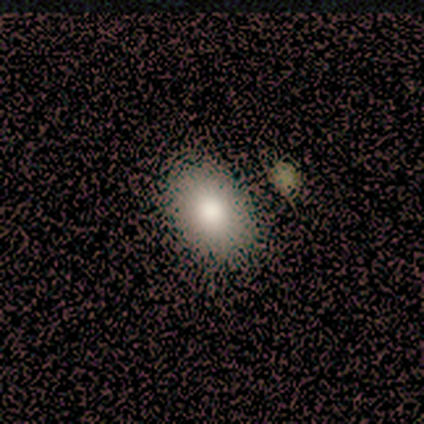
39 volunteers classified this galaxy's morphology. A smooth galaxy with no disk features (82%) that is in between round and cigar-shaped (91%).

Vote fractions:
- Smooth or featured? smooth: 82% / star or artifact: 10% / featured or disk: 8%
- How rounded? in between: 91% / round: 9% / cigar-shaped: 0%
- Merging? none: 51% / merger: 11% / major disturbance: 6% / minor disturbance: 0%